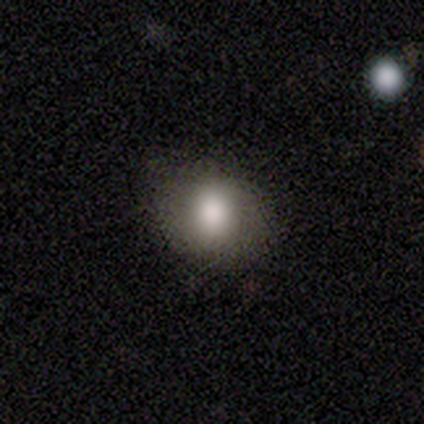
Smooth or featured: smooth — 100%
How rounded: round — 50% (tied with in between — 50%)
Merging: none — 83% (minor disturbance — 17%)